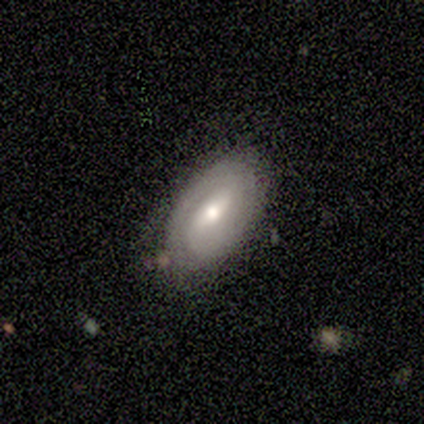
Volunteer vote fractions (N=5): A featured or disk galaxy (100%) with a weak bar (75%), 2 (67%) tight (33%, tied with medium and loose) spiral arms (75%) and a moderate central bulge (75%). Merging: none (80%).